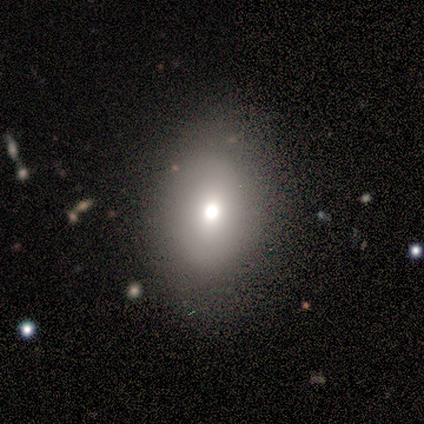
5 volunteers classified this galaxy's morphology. This appears to be a star or artifact, not a galaxy (60%).